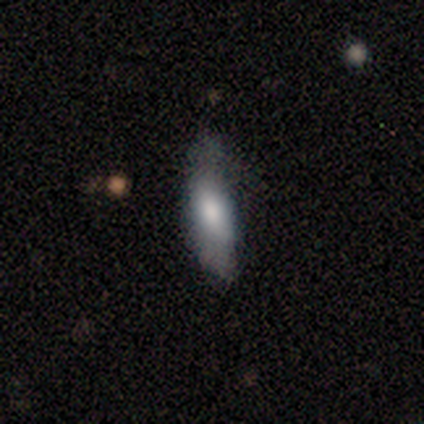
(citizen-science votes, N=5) smooth 60%, featured or disk 40%, star or artifact 0%. Down the decision tree: how rounded — cigar-shaped (100%); merging — none (100%).